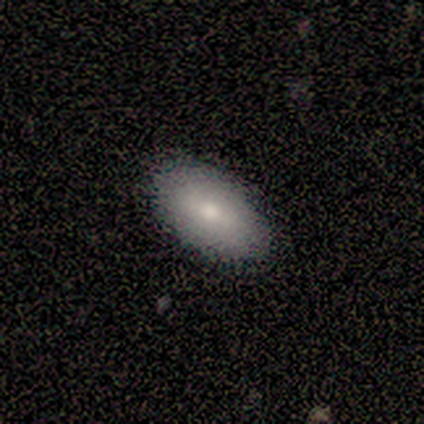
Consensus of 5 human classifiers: A smooth galaxy with no disk features (80%) that is in between round and cigar-shaped (100%).

Vote fractions:
- Smooth or featured? smooth: 80% / featured or disk: 20% / star or artifact: 0%
- How rounded? in between: 100% / round: 0% / cigar-shaped: 0%
- Merging? none: 100% / minor disturbance: 0% / major disturbance: 0% / merger: 0%